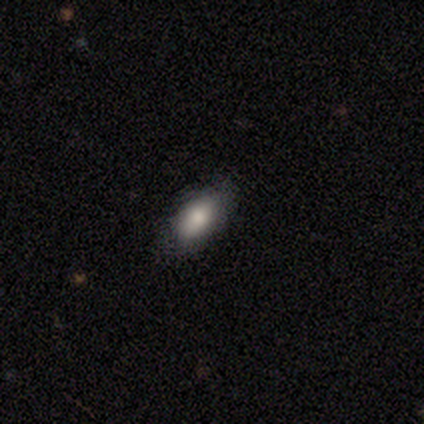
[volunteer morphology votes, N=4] smooth-or-featured: smooth: 100% | featured or disk: 0% | star or artifact: 0%
  how-rounded: in between: 100% | round: 0% | cigar-shaped: 0%
  merging: none: 100% | minor disturbance: 0% | major disturbance: 0% | merger: 0%